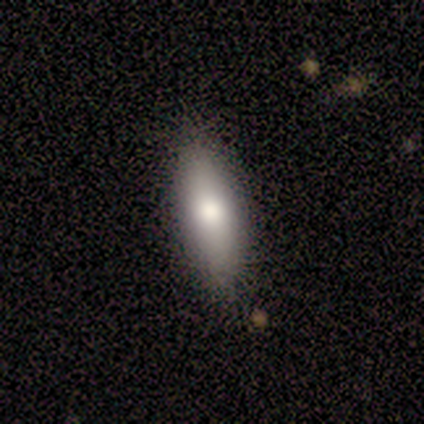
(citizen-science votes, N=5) A smooth galaxy with no disk features (80%) that is in between round and cigar-shaped (75%).

Vote fractions:
- Smooth or featured? smooth: 80% / featured or disk: 20% / star or artifact: 0%
- How rounded? in between: 75% / cigar-shaped: 25% / round: 0%
- Merging? none: 100% / minor disturbance: 0% / major disturbance: 0% / merger: 0%